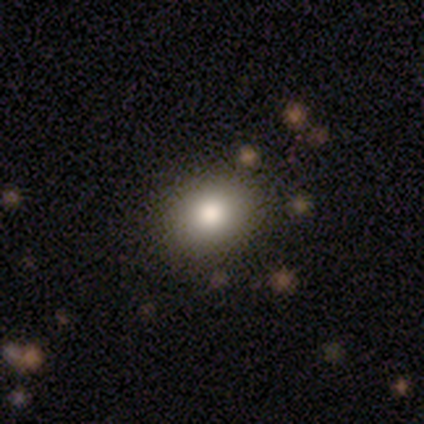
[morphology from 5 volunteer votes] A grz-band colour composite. It shows a smooth galaxy with no disk features (40%, tied with star or artifact) that is round (50%, tied with in between). Merging: none (100%).